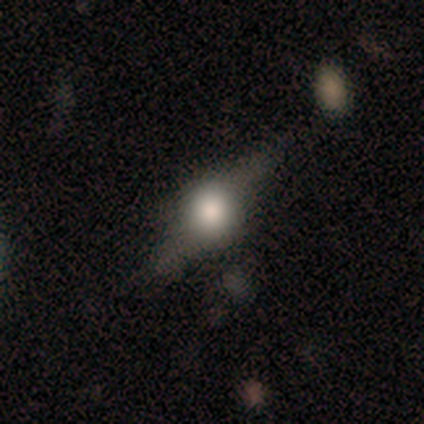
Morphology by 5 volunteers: This is likely a featured or disk galaxy (60%). It is clearly viewed edge-on (100%). Edge-on bulge: clearly rounded (100%). Merging: likely none (60%).